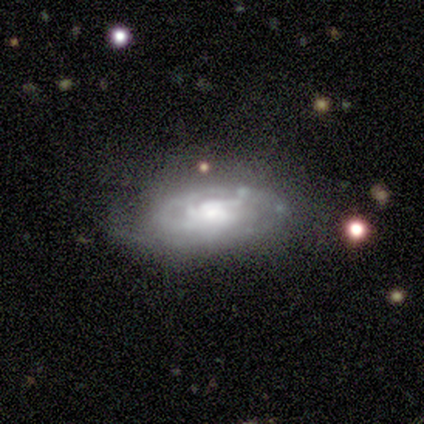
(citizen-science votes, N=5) Smooth or featured: featured or disk — 100%
Edge-on disk: no — 80% (yes — 20%)
Bar: no — 100%
Spiral arms: yes — 100%
Spiral winding: tight — 75% (medium — 25%)
Spiral arm count: 3 — 50% (1 — 25%)
Bulge size: moderate — 75% (large — 25%)
Merging: none — 100%